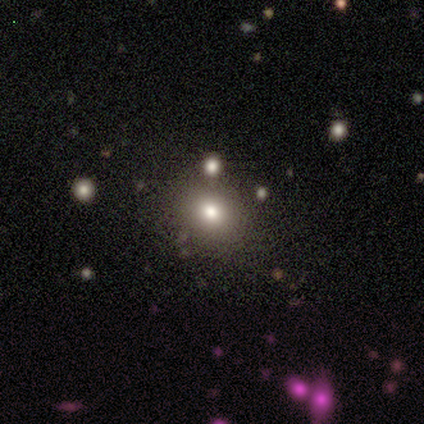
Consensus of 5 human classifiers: A smooth galaxy with no disk features (80%) that is round (100%).

Vote fractions:
- Smooth or featured? smooth: 80% / featured or disk: 20% / star or artifact: 0%
- How rounded? round: 100% / in between: 0% / cigar-shaped: 0%
- Merging? none: 80% / minor disturbance: 20% / major disturbance: 0% / merger: 0%